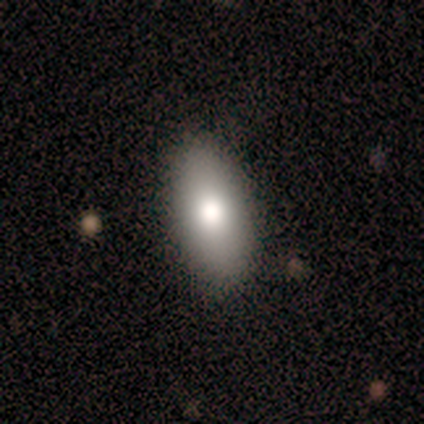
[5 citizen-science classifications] This appears to be a smooth galaxy with no disk features (100%) that is in between round and cigar-shaped (100%). Merging: none (100%).